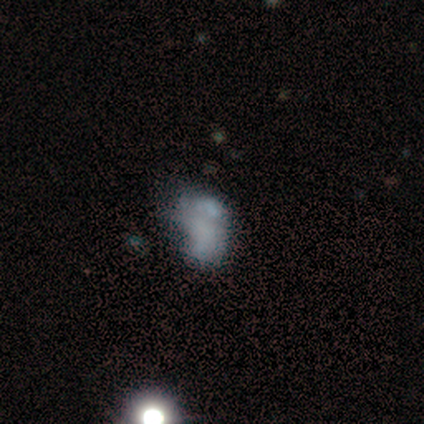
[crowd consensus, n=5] smooth-or-featured: star or artifact: 60% | smooth: 40% | featured or disk: 0%